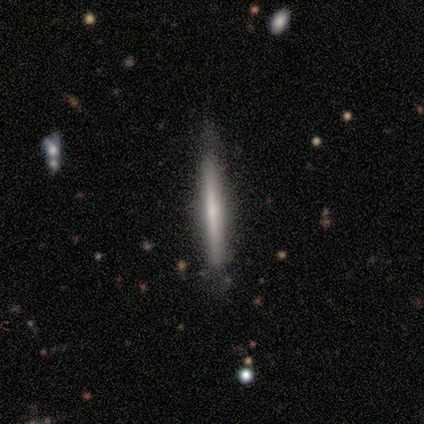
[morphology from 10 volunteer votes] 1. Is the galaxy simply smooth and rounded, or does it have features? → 60% smooth, 40% featured or disk, 0% star or artifact.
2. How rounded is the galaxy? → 100% cigar-shaped, 0% round, 0% in between.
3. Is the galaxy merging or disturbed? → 90% none, 10% minor disturbance, 0% major disturbance, 0% merger.